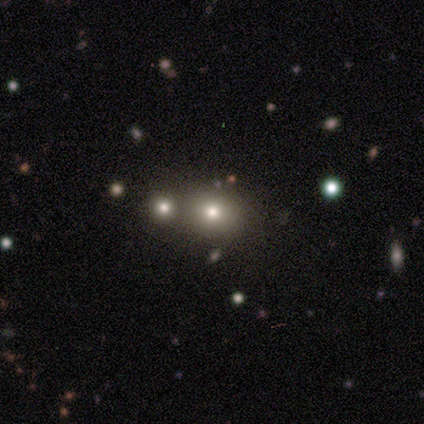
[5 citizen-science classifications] Smooth or featured: smooth — 100%
How rounded: round — 60% (in between — 40%)
Merging: none — 80% (merger — 20%)